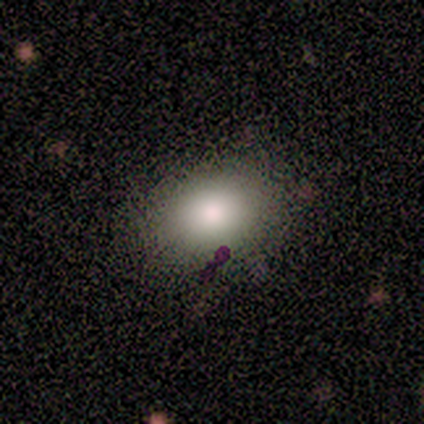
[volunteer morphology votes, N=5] This appears to be a smooth galaxy with no disk features (60%) that is in between round and cigar-shaped (100%). Merging: minor disturbance (60%).